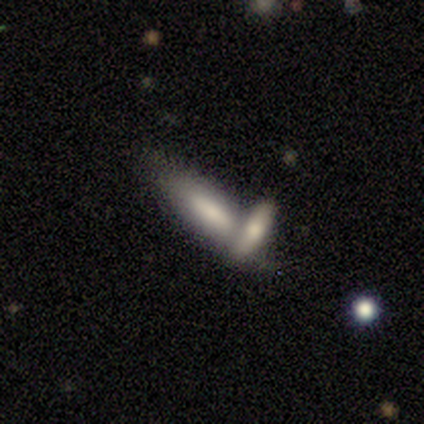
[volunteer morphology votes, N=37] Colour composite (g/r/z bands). It shows a smooth galaxy with no disk features (65%) that is cigar-shaped (58%). Merging: merger (49%).